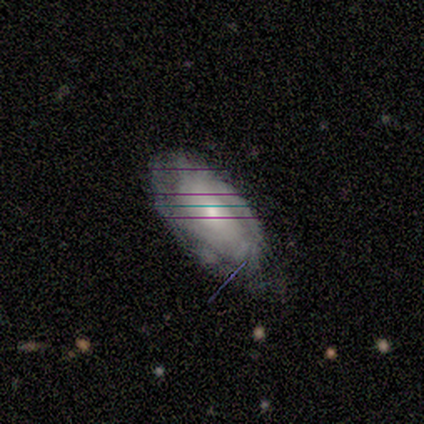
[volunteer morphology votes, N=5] Volunteers were most divided on "smooth or featured": featured or disk: 60%, smooth: 40%, star or artifact: 0%. More confident: edge-on disk — no (100%); spiral arms — yes (100%); bar — no (67%); spiral winding — tight (67%); spiral arm count — 2 (67%); bulge size — small (67%); merging — none (60%).